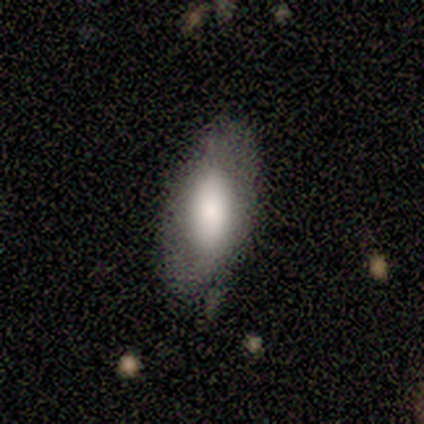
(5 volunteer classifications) A smooth galaxy with no disk features (60%) that is round (33%, tied with in between and cigar-shaped). Merging: none (75%).